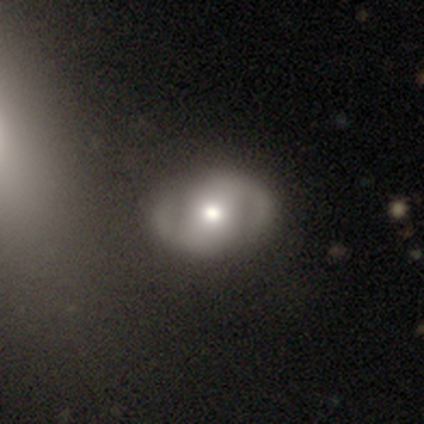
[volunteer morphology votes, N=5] A star or artifact, not a galaxy (60%).